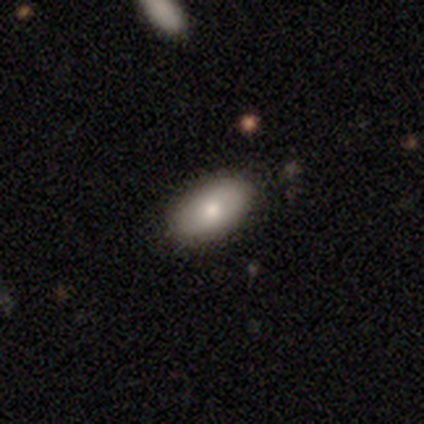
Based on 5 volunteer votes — Smooth or featured? 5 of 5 (100%) said smooth. How rounded? 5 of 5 (100%) said in between. Merging? 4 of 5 (80%) said none.